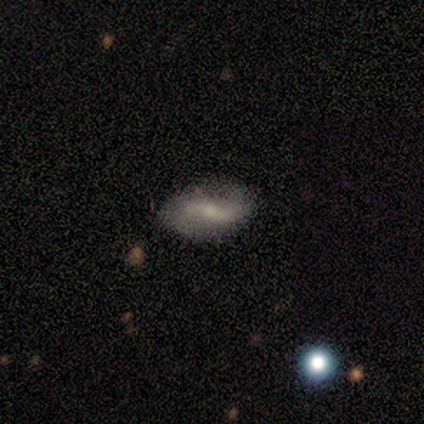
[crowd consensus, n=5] A smooth galaxy with no disk features (80%) that is in between round and cigar-shaped (100%). Merging: none (80%).